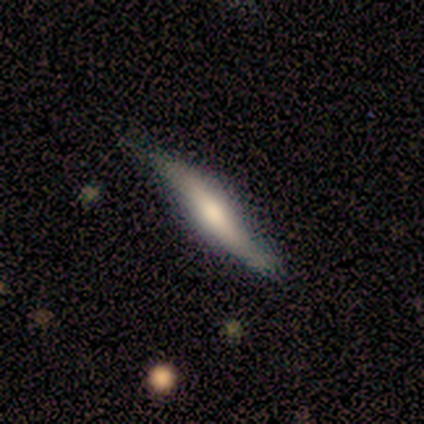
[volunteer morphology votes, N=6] This appears to be a smooth galaxy with no disk features (50%) that is cigar-shaped (100%). Merging: none (60%).